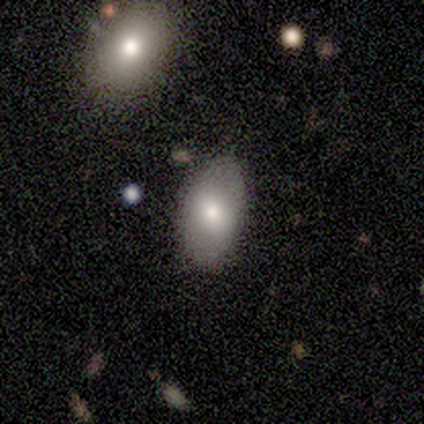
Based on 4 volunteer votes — Smooth or featured? 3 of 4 (75%) said smooth. How rounded? 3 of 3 (100%) said in between. Merging? 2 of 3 (67%) said none.